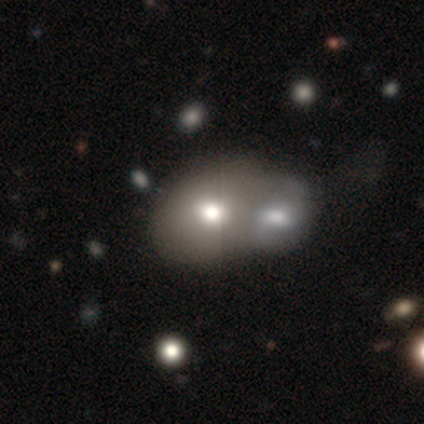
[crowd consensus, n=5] Smooth or featured?
  - smooth: 100% *
  - featured or disk: 0%
  - star or artifact: 0%
How rounded?
  - in between: 60% *
  - round: 40%
  - cigar-shaped: 0%
Merging?
  - merger: 80% *
  - none: 20%
  - minor disturbance: 0%
  - major disturbance: 0%